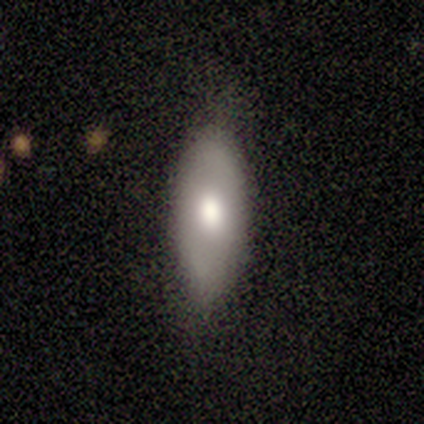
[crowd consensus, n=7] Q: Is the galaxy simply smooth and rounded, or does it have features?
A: smooth — 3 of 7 (43%).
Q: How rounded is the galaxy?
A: in between — 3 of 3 (100%).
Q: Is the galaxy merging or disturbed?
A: none — 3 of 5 (60%).